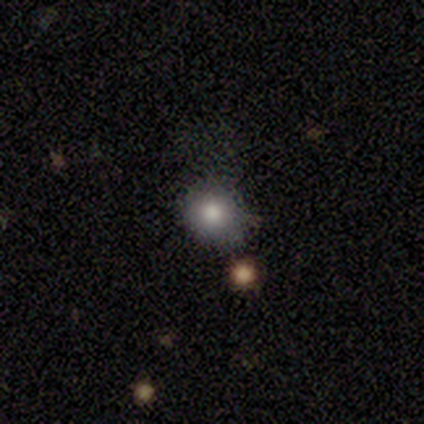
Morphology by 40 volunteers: This is likely a smooth galaxy (65%). How rounded: clearly round (96%). Merging: likely none (74%).